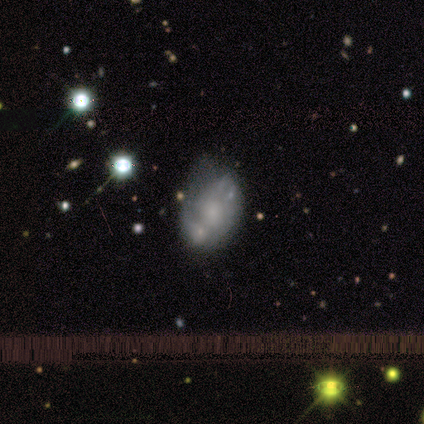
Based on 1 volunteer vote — smooth-or-featured: featured or disk: 100% | smooth: 0% | star or artifact: 0%
  disk-edge-on: no: 100% | yes: 0%
    bar: no: 100% | strong: 0% | weak: 0%
    has-spiral-arms: yes: 100% | no: 0%
      spiral-winding: medium: 100% | tight: 0% | loose: 0%
      spiral-arm-count: 1: 100% | 2: 0% | 3: 0% | 4: 0% | more than 4: 0% | can't tell: 0%
    bulge-size: small: 100% | dominant: 0% | large: 0% | moderate: 0% | none: 0%
  merging: none: 100% | minor disturbance: 0% | major disturbance: 0% | merger: 0%